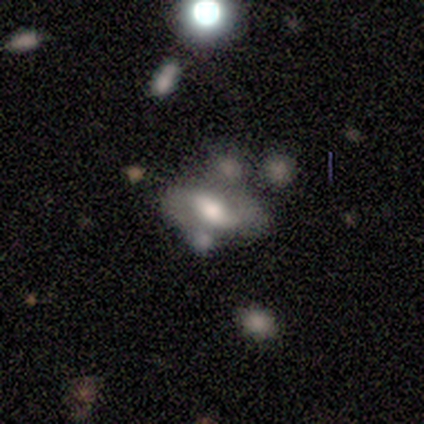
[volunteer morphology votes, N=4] Smooth or featured? smooth (75%)
How rounded? in between (100%)
Merging? none (50%)